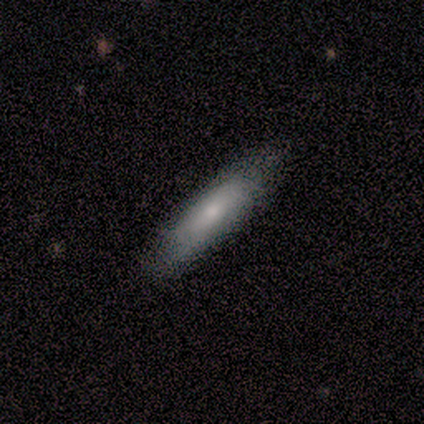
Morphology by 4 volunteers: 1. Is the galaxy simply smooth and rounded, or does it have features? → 50% smooth, 25% featured or disk, 25% star or artifact.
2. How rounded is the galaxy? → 100% cigar-shaped, 0% round, 0% in between.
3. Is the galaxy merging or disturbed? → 100% none, 0% minor disturbance, 0% major disturbance, 0% merger.